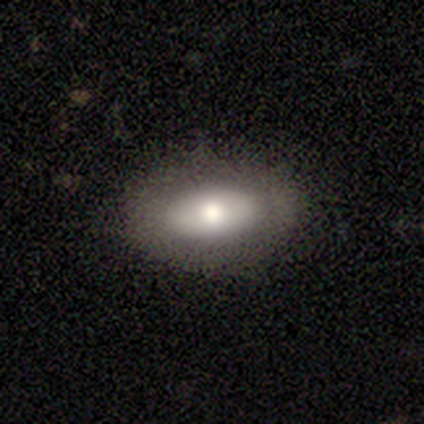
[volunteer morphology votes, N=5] Smooth or featured: featured or disk — 60% (smooth — 40%)
Edge-on disk: no — 100%
Bar: no — 100%
Spiral arms: no — 100%
Bulge size: dominant — 33% (tied with large — 33%; moderate — 33%)
Merging: none — 40% (tied with minor disturbance — 40%)